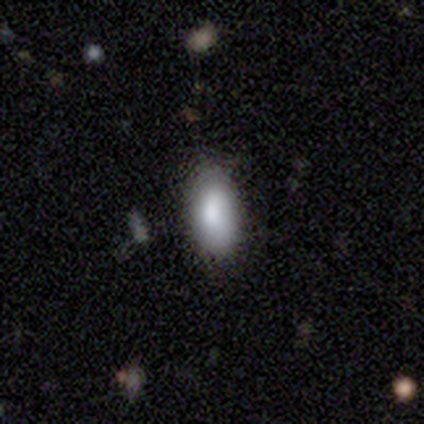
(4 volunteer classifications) smooth-or-featured: smooth: 75% | featured or disk: 25% | star or artifact: 0%
  how-rounded: in between: 67% | round: 33% | cigar-shaped: 0%
  merging: none: 50% (tied) | minor disturbance: 50% (tied) | major disturbance: 0% | merger: 0%